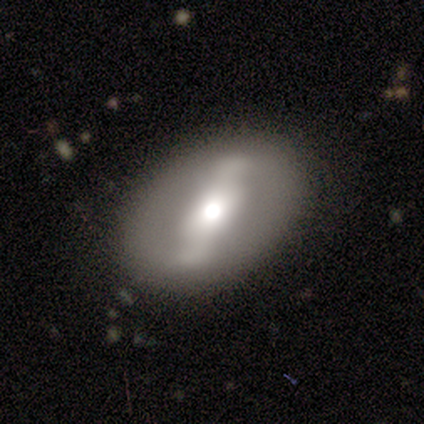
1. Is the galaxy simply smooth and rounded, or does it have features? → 100% featured or disk, 0% smooth, 0% star or artifact.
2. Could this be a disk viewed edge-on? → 100% no, 0% yes.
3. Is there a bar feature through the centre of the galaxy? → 100% strong, 0% weak, 0% no.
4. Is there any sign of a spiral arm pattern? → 100% no, 0% yes.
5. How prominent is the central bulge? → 50% small, 25% dominant, 25% moderate, 0% large, 0% none.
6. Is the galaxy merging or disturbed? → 100% none, 0% minor disturbance, 0% major disturbance, 0% merger.